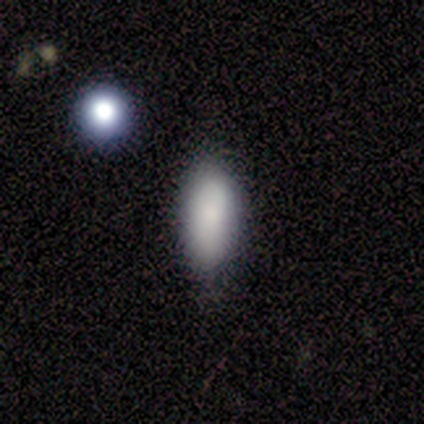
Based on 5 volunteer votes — This appears to be a smooth galaxy with no disk features (100%) that is in between round and cigar-shaped (100%). Merging: none (100%).